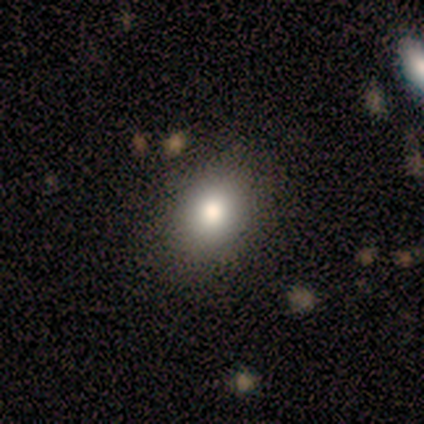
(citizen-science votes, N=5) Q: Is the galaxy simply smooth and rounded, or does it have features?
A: smooth — 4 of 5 (80%).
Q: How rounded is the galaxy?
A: round — 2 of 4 (50%, tied with in between).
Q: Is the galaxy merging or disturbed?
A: none — 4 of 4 (100%).